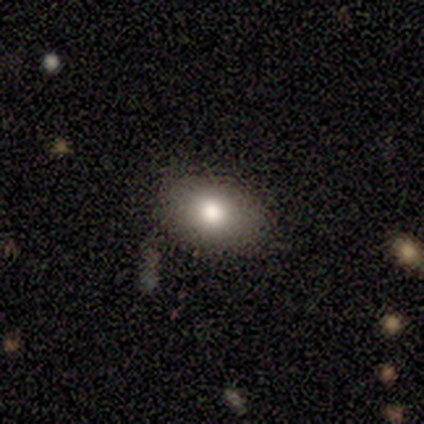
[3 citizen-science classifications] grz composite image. It shows a smooth galaxy with no disk features (67%) that is in between round and cigar-shaped (100%). Merging: none (100%).